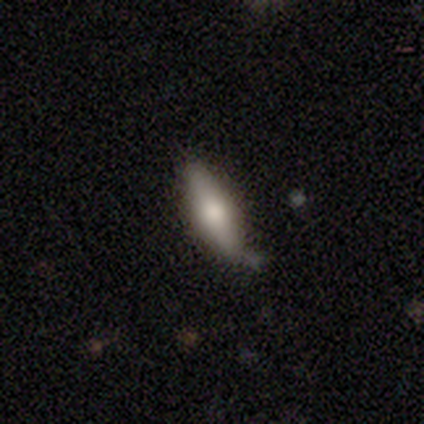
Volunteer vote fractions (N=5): smooth_or_featured: smooth (p=0.60) [alt: featured or disk p=0.20]
how_rounded: cigar-shaped (p=0.67) [alt: in between p=0.33]
merging: none (p=1.00)